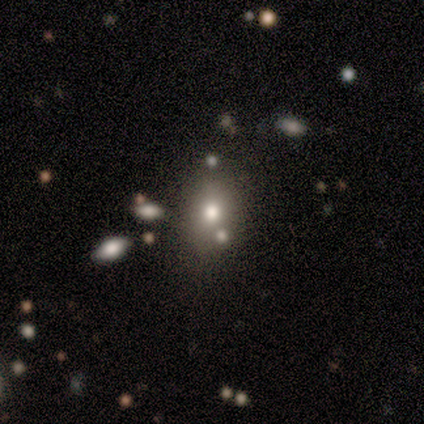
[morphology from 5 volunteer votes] This is likely a smooth galaxy (60%). How rounded: likely round (67%). Merging: likely none (75%).